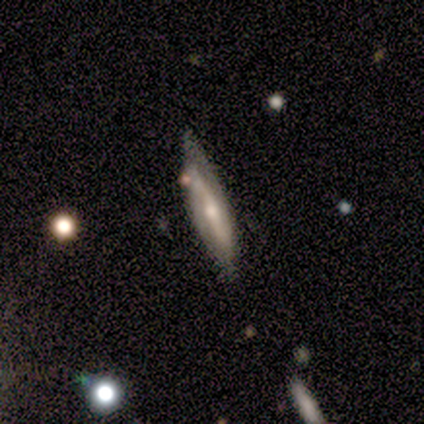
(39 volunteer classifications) smooth-or-featured: featured or disk: 79% | smooth: 15% | star or artifact: 5%
  disk-edge-on: no: 52% | yes: 48%
    bar: weak: 56% | strong: 25% | no: 19%
    has-spiral-arms: yes: 75% | no: 25%
      spiral-winding: medium: 58% | tight: 25% | loose: 17%
      spiral-arm-count: 2: 83% | can't tell: 17% | 1: 0% | 3: 0% | 4: 0% | more than 4: 0%
    bulge-size: small: 50% | moderate: 44% | none: 6% | dominant: 0% | large: 0%
  merging: none: 68% | minor disturbance: 27% | major disturbance: 3% | merger: 3%